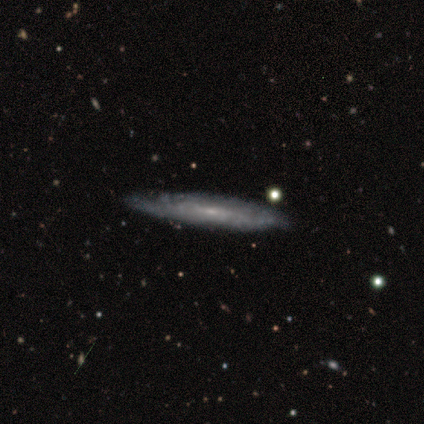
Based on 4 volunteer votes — smooth_or_featured: featured or disk (p=0.75) [alt: smooth p=0.25]
disk_edge_on: yes (p=1.00)
edge_on_bulge: none (p=0.67) [alt: rounded p=0.33]
merging: none (p=1.00)